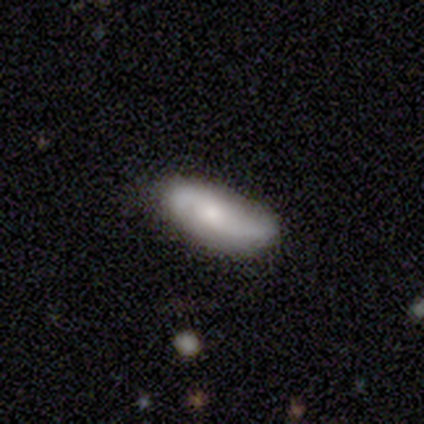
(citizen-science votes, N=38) Q: Smooth or featured?
A: featured or disk (53%); runner-up: smooth (45%)
Q: Edge-on disk?
A: no (95%); runner-up: yes (5%)
Q: Bar?
A: no (84%); runner-up: weak (11%)
Q: Spiral arms?
A: yes (95%); runner-up: no (5%)
Q: Spiral winding?
A: loose (67%); runner-up: medium (28%)
Q: Spiral arm count?
A: 2 (94%); runner-up: can't tell (6%)
Q: Bulge size?
A: small (42%); runner-up: moderate (32%)
Q: Merging?
A: none (59%); runner-up: minor disturbance (30%)